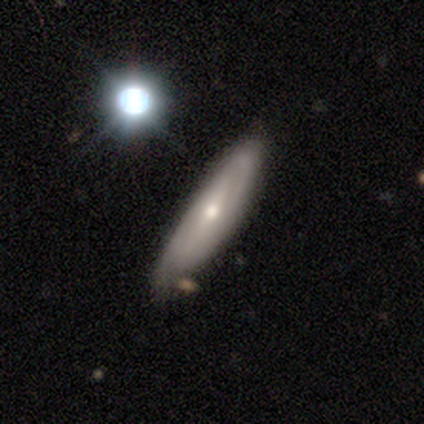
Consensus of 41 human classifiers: Volunteers were most divided on "spiral arms": no: 56%, yes: 44%. More confident: edge-on disk — no (70%); merging — none (64%); smooth or featured — featured or disk (56%); bar — no (50%); bulge size — small (50%).